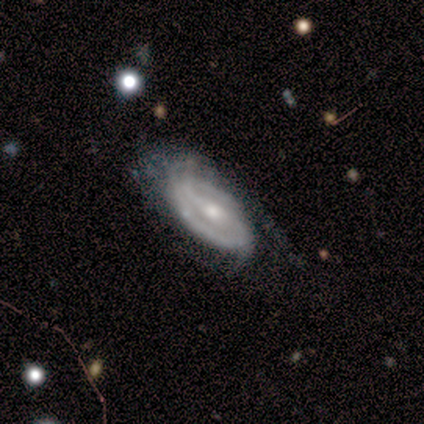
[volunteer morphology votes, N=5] A featured or disk galaxy (80%) with a strong bar (100%), 2 (100%) tight (67%) spiral arms (75%) and a small central bulge (50%).

Vote fractions:
- Smooth or featured? featured or disk: 80% / smooth: 20% / star or artifact: 0%
- Edge-on disk? no: 100% / yes: 0%
- Bar? strong: 100% / weak: 0% / no: 0%
- Spiral arms? yes: 75% / no: 25%
- Spiral winding? tight: 67% / medium: 33% / loose: 0%
- Spiral arm count? 2: 100% / 1: 0% / 3: 0% / 4: 0% / more than 4: 0% / can't tell: 0%
- Bulge size? small: 50% / large: 25% / moderate: 25% / dominant: 0% / none: 0%
- Merging? none: 80% / major disturbance: 20% / minor disturbance: 0% / merger: 0%